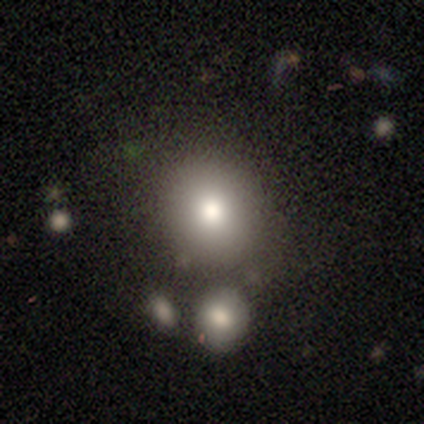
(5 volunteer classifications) A smooth galaxy with no disk features (60%) that is round (100%). Merging: none (50%).